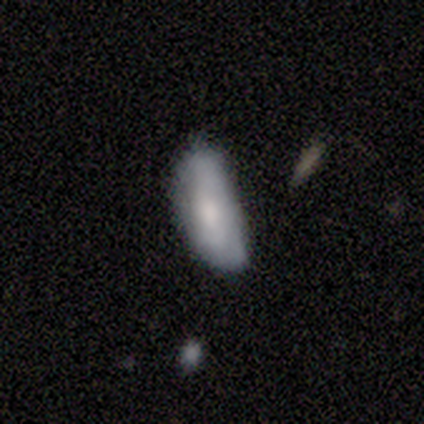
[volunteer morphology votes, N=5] Smooth or featured?
  - smooth: 60% *
  - featured or disk: 40%
  - star or artifact: 0%
How rounded?
  - in between: 67% *
  - cigar-shaped: 33%
  - round: 0%
Merging?
  - minor disturbance: 80% *
  - none: 20%
  - major disturbance: 0%
  - merger: 0%